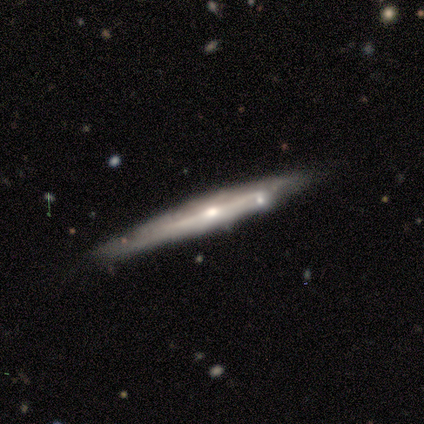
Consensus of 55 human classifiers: Smooth or featured: featured or disk — 85% (smooth — 9%)
Edge-on disk: yes — 91% (no — 9%)
Edge-on bulge: rounded — 67% (none — 26%)
Merging: none — 79% (minor disturbance — 13%)